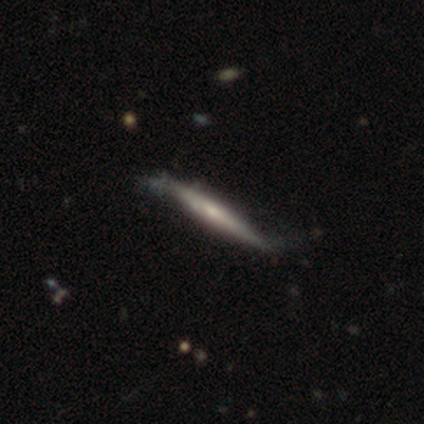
Volunteers were most divided on "merging": none: 33%, minor disturbance: 22%, major disturbance: 5%, merger: 0%. More confident: edge-on disk — yes (97%); smooth or featured — featured or disk (75%); edge-on bulge — rounded (51%).